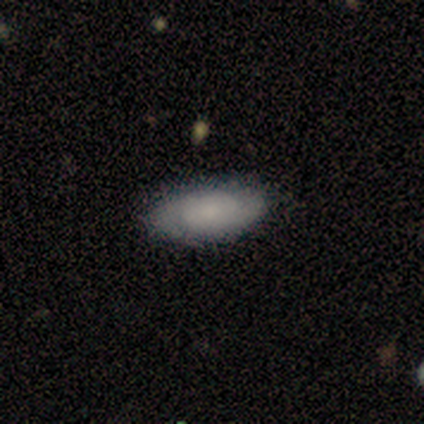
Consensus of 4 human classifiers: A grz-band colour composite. It shows a smooth galaxy with no disk features (50%, tied with featured or disk) that is in between round and cigar-shaped (100%). Merging: none (75%).